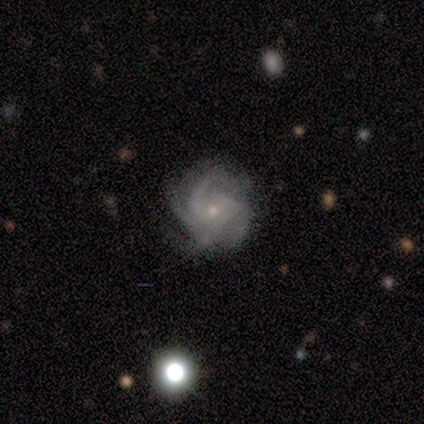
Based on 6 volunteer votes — Smooth or featured? 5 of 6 (83%) said featured or disk. Edge-on disk? 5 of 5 (100%) said no. Bar? 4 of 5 (80%) said no. Spiral arms? 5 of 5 (100%) said yes. Spiral winding? 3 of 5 (60%) said tight. Spiral arm count? 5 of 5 (100%) said 4. Bulge size? 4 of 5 (80%) said small. Merging? 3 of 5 (60%) said minor disturbance.